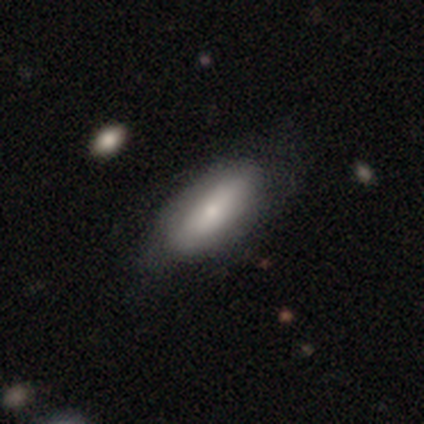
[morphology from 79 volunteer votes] Smooth or featured: smooth — 68% (featured or disk — 27%)
How rounded: in between — 85% (cigar-shaped — 15%)
Merging: none — 32% (minor disturbance — 16%)